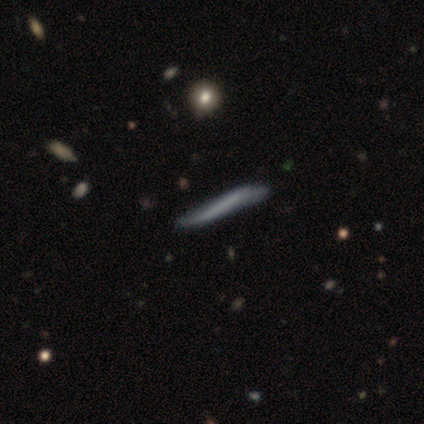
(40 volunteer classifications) Smooth or featured?
  - featured or disk: 50% *
  - smooth: 45%
  - star or artifact: 5%
Edge-on disk?
  - yes: 95% *
  - no: 5%
Edge-on bulge?
  - none: 95% *
  - rounded: 5%
  - boxy: 0%
Merging?
  - none: 68% *
  - minor disturbance: 21%
  - major disturbance: 11%
  - merger: 0%